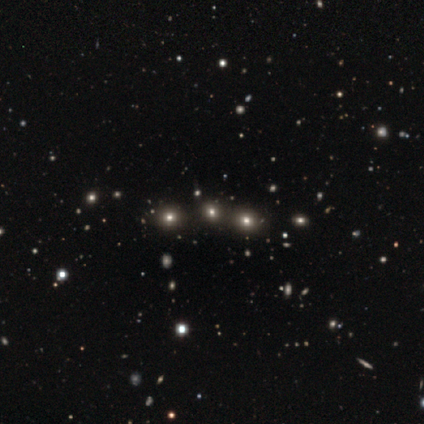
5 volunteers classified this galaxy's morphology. A smooth galaxy with no disk features (40%, tied with star or artifact) that is round (100%).

Vote fractions:
- Smooth or featured? smooth: 40% (tied) / star or artifact: 40% (tied) / featured or disk: 20%
- How rounded? round: 100% / in between: 0% / cigar-shaped: 0%
- Merging? none: 67% / merger: 33% / minor disturbance: 0% / major disturbance: 0%